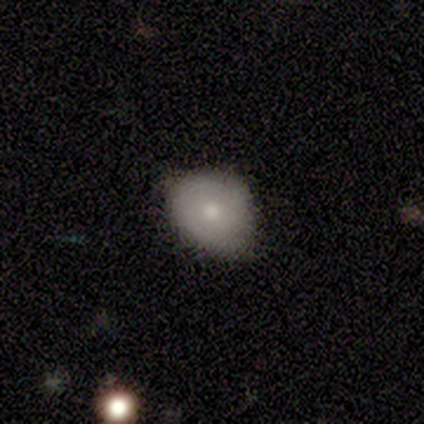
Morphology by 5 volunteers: This appears to be a smooth galaxy with no disk features (60%) that is round (67%). Merging: none (60%).